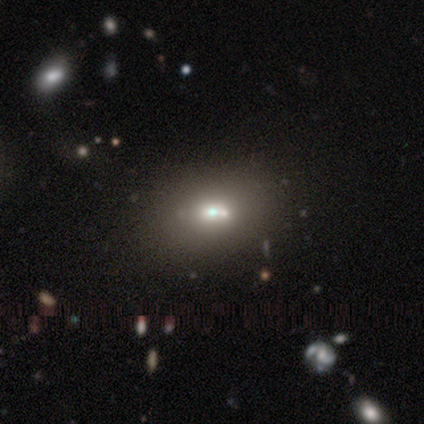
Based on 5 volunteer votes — Smooth or featured? 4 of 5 (80%) said smooth. How rounded? 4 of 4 (100%) said in between. Merging? 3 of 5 (60%) said none.